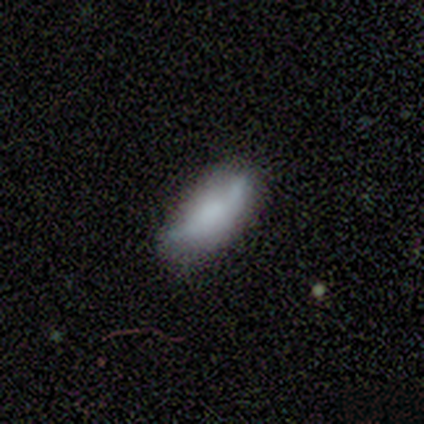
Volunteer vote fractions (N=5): This is clearly a smooth galaxy (80%). How rounded: likely cigar-shaped (75%). Merging: likely minor disturbance (75%).